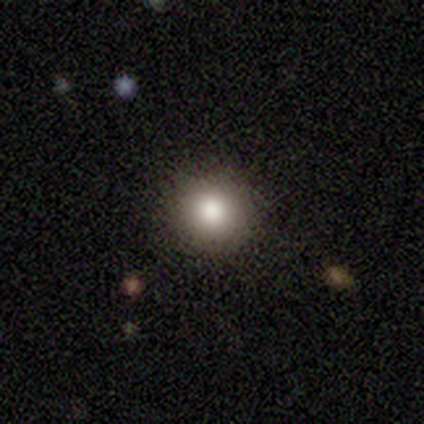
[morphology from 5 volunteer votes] This is clearly a smooth galaxy (100%). How rounded: clearly round (100%). Merging: clearly none (100%).